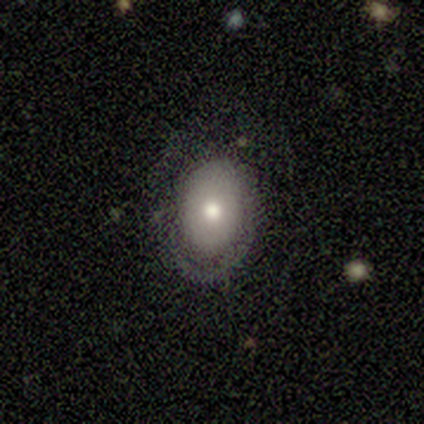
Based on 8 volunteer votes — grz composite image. It shows a smooth galaxy with no disk features (75%) that is in between round and cigar-shaped (67%). Merging: minor disturbance (43%).